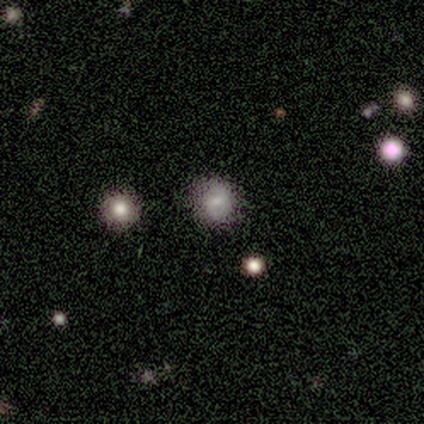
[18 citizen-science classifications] Smooth or featured: smooth — 61% (star or artifact — 28%)
How rounded: round — 91% (in between — 9%)
Merging: none — 92% (minor disturbance — 8%)